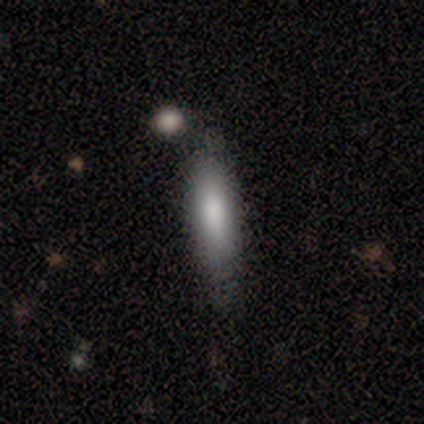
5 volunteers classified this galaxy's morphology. Smooth or featured? smooth (100%)
How rounded? cigar-shaped (100%)
Merging? none (60%)